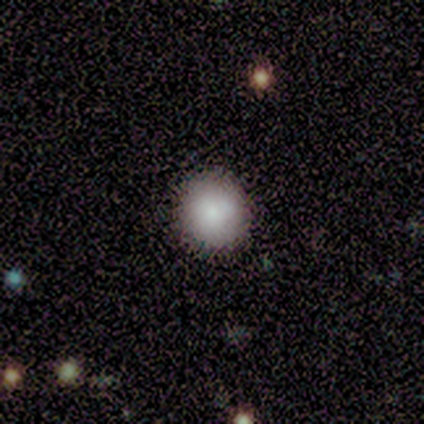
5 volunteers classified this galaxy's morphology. smooth_or_featured: smooth (p=1.00)
how_rounded: round (p=1.00)
merging: none (p=0.60) [alt: minor disturbance p=0.40]